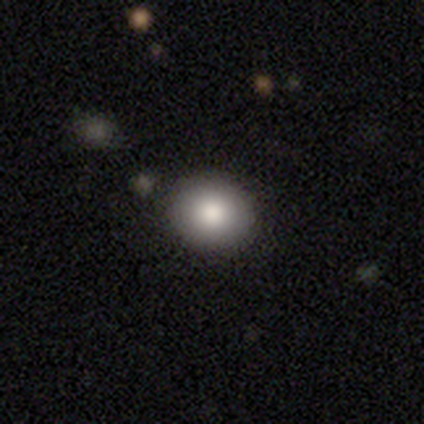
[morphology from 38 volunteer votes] smooth_or_featured: smooth (p=0.89) [alt: featured or disk p=0.05]
how_rounded: round (p=0.82) [alt: in between p=0.18]
merging: none (p=0.97) [alt: minor disturbance p=0.03]